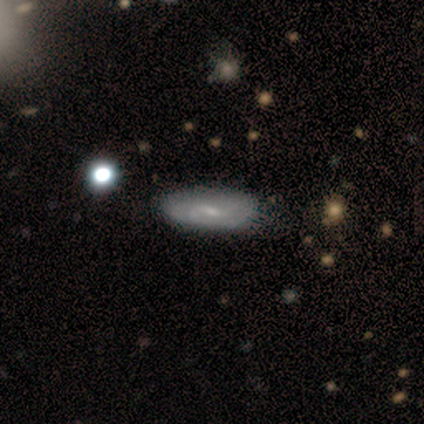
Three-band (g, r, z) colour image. It shows a featured or disk galaxy (67%) with a weak bar (67%), 2 (100%) medium (67%) spiral arms (50%, tied with no) and a small central bulge (50%). Merging: none (50%, tied with minor disturbance).